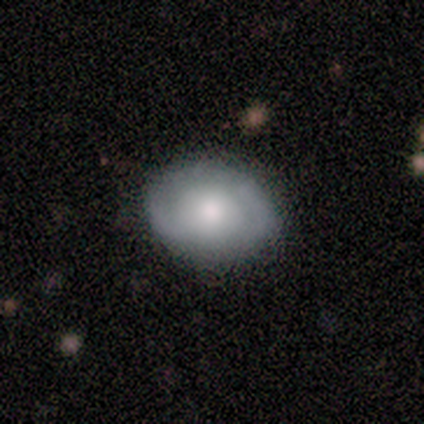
Morphology: type=smooth (50%, tied with featured or disk); roundness=round (100%); merging=none (100%).